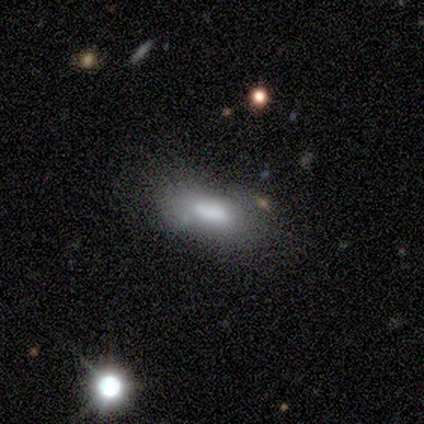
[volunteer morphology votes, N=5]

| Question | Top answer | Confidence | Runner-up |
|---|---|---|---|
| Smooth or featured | smooth | 80% | star or artifact (20%) |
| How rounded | in between | 100% | — |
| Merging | none | 75% | minor disturbance (25%) |